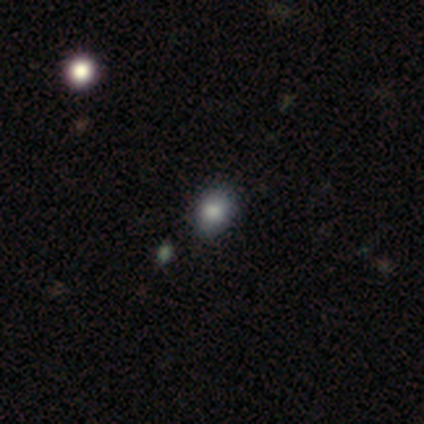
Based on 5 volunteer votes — Morphology: type=smooth (100%); roundness=round (60%); merging=none (80%).